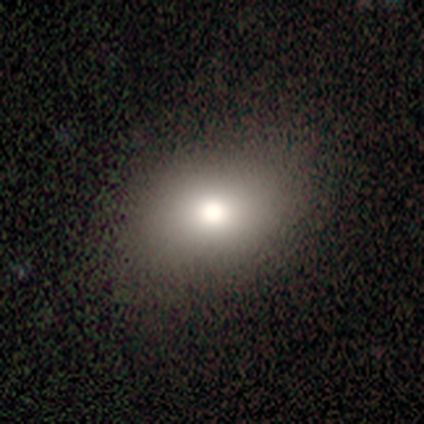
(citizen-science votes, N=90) A smooth galaxy with no disk features (74%) that is in between round and cigar-shaped (67%).

Vote fractions:
- Smooth or featured? smooth: 74% / star or artifact: 18% / featured or disk: 8%
- How rounded? in between: 67% / round: 33% / cigar-shaped: 0%
- Merging? none: 86% / minor disturbance: 9% / major disturbance: 3% / merger: 1%